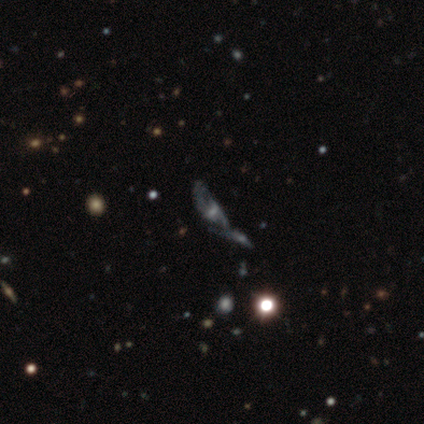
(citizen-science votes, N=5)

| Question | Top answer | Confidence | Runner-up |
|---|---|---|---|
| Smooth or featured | featured or disk | 60% | smooth (20%) |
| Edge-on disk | no | 100% | — |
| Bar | no | 67% | weak (33%) |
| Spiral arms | yes | 100% | — |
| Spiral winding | medium | 67% | tight (33%) |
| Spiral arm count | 3 | 67% | can't tell (33%) |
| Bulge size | small | 100% | — |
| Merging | merger | 75% | major disturbance (25%) |